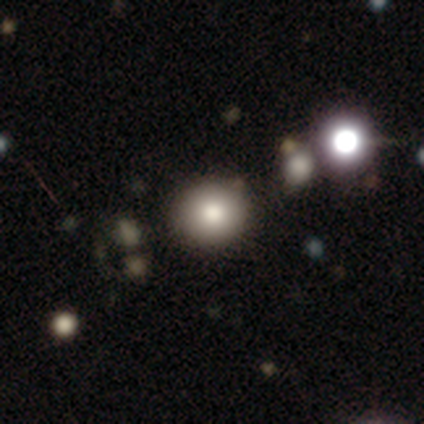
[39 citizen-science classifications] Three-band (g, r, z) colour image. It shows a smooth galaxy with no disk features (85%) that is round (91%). Merging: none (61%).